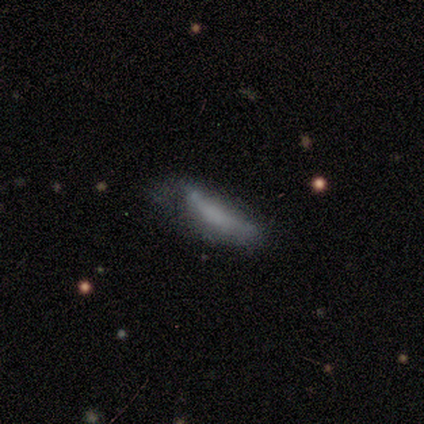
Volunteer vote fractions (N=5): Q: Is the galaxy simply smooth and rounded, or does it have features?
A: smooth — 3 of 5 (60%).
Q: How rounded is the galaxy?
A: cigar-shaped — 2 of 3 (67%).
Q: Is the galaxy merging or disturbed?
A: minor disturbance — 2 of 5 (40%, tied with major disturbance).